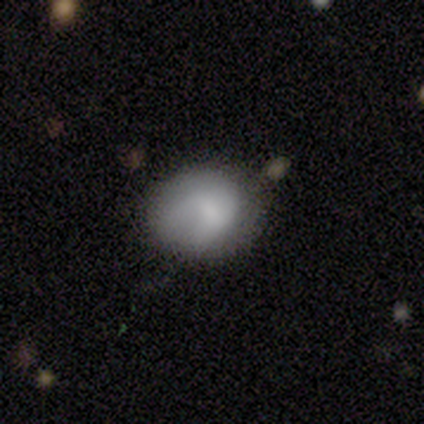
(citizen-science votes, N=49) smooth-or-featured: smooth: 73% | featured or disk: 20% | star or artifact: 6%
  how-rounded: round: 75% | in between: 25% | cigar-shaped: 0%
  merging: none: 63% | minor disturbance: 30% | major disturbance: 4% | merger: 2%